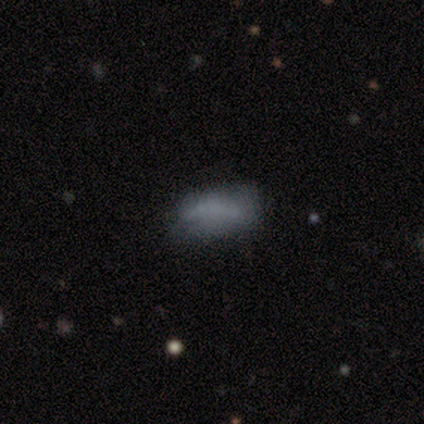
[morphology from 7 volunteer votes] Overall: smooth (86%). How rounded: in between (83%). Merging: none (86%).